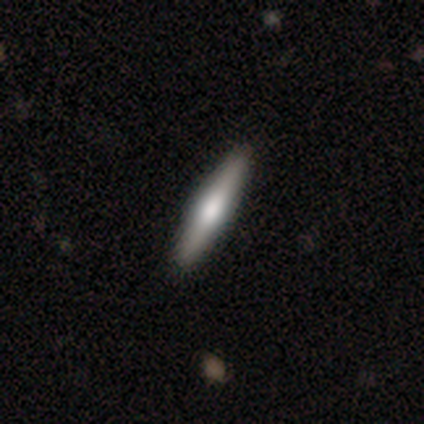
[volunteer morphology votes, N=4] Smooth or featured?
  - featured or disk: 75% *
  - star or artifact: 25%
  - smooth: 0%
Edge-on disk?
  - yes: 100% *
  - no: 0%
Edge-on bulge?
  - rounded: 67% *
  - boxy: 33%
  - none: 0%
Merging?
  - none: 100% *
  - minor disturbance: 0%
  - major disturbance: 0%
  - merger: 0%